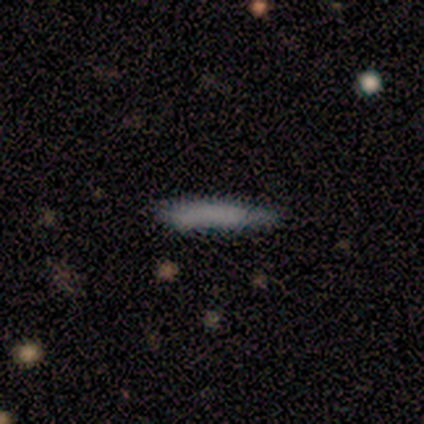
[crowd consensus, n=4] Smooth or featured: smooth — 100%
How rounded: in between — 50% (tied with cigar-shaped — 50%)
Merging: none — 50% (minor disturbance — 25%)